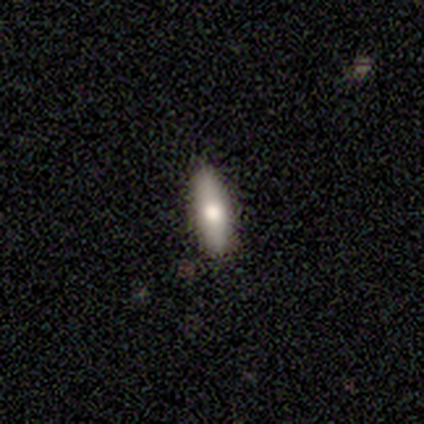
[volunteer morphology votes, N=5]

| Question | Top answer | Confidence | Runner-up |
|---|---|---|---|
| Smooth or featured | smooth | 80% | featured or disk (20%) |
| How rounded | in between | 50% | tied: cigar-shaped (50%) |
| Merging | none | 40% | tied: minor disturbance (40%) |